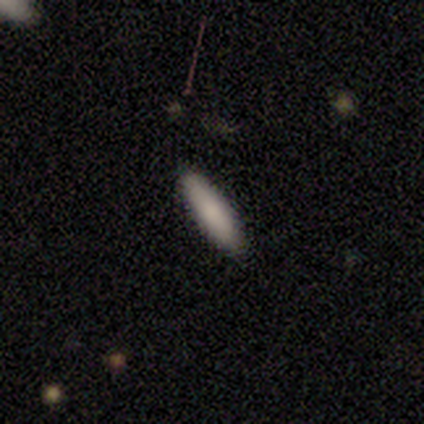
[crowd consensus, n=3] A smooth galaxy with no disk features (67%) that is cigar-shaped (100%). Merging: none (100%).